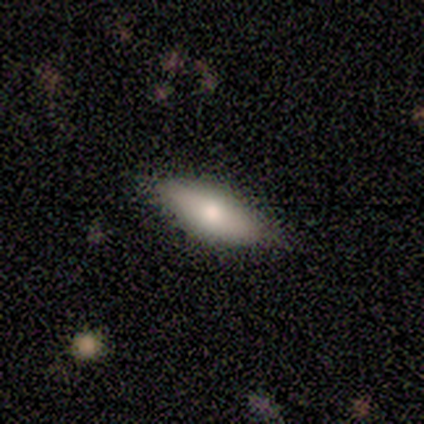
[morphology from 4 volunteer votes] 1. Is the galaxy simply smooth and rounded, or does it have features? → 50% smooth (tied), 50% featured or disk (tied), 0% star or artifact.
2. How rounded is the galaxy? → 50% in between (tied), 50% cigar-shaped (tied), 0% round.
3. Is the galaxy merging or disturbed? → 100% none, 0% minor disturbance, 0% major disturbance, 0% merger.